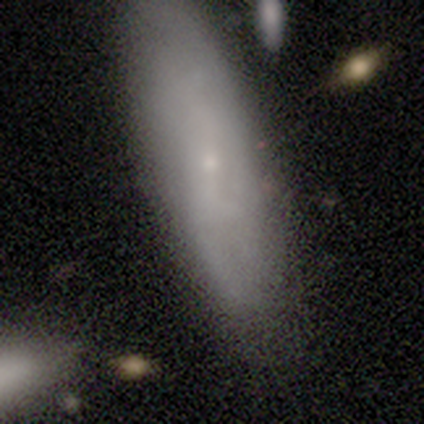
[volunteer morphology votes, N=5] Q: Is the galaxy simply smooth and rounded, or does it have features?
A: smooth — 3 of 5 (60%).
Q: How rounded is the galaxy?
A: cigar-shaped — 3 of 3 (100%).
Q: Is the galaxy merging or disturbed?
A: none — 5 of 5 (100%).